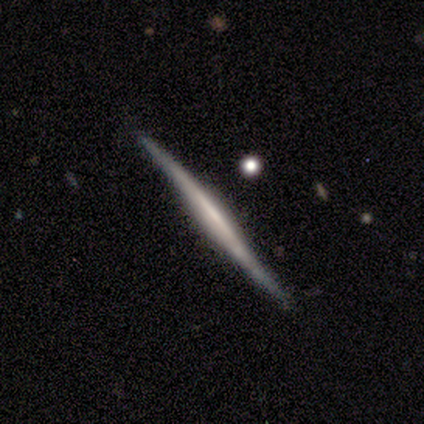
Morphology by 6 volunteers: Smooth or featured: featured or disk — 67% (smooth — 17%)
Edge-on disk: yes — 100%
Edge-on bulge: boxy — 100%
Merging: none — 60% (minor disturbance — 40%)